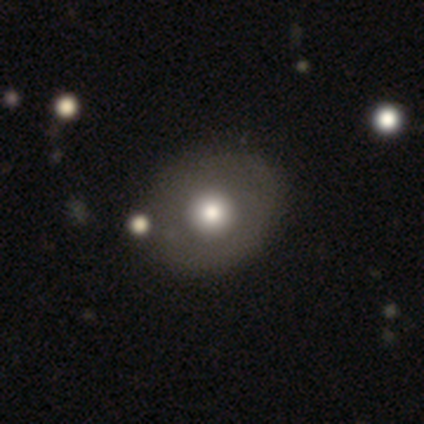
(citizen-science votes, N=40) Smooth or featured: smooth — 52% (featured or disk — 30%)
How rounded: round — 67% (in between — 33%)
Merging: none — 64% (minor disturbance — 6%)